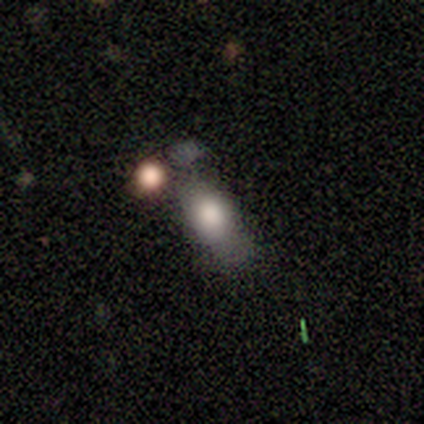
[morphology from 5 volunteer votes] A smooth galaxy with no disk features (60%) that is in between round and cigar-shaped (100%). Merging: none (40%, tied with minor disturbance).